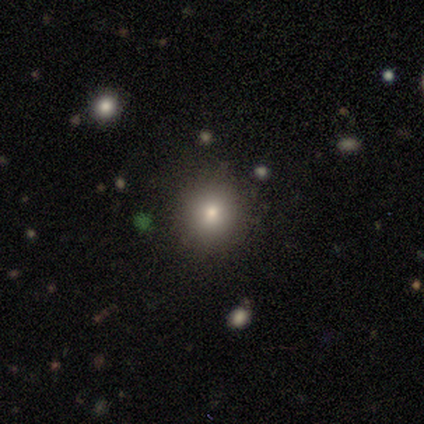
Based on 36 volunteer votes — Smooth or featured: smooth — 75% (star or artifact — 17%)
How rounded: round — 89% (in between — 11%)
Merging: none — 70% (minor disturbance — 30%)